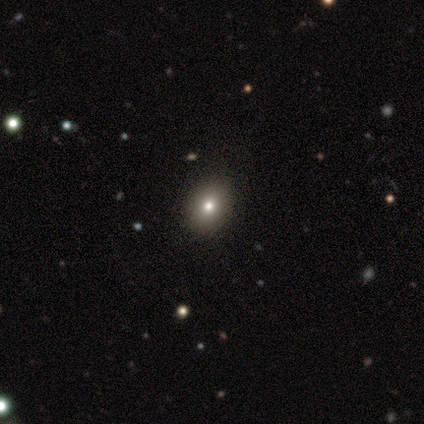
smooth 55%, star or artifact 30%, featured or disk 15%. Down the decision tree: how rounded — in between (55%); merging — none (86%).